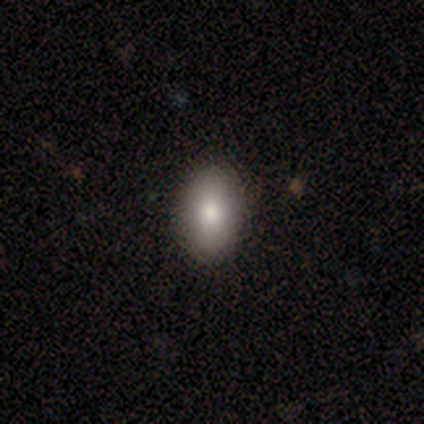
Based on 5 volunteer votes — A smooth galaxy with no disk features (80%) that is in between round and cigar-shaped (75%).

Vote fractions:
- Smooth or featured? smooth: 80% / star or artifact: 20% / featured or disk: 0%
- How rounded? in between: 75% / round: 25% / cigar-shaped: 0%
- Merging? none: 100% / minor disturbance: 0% / major disturbance: 0% / merger: 0%